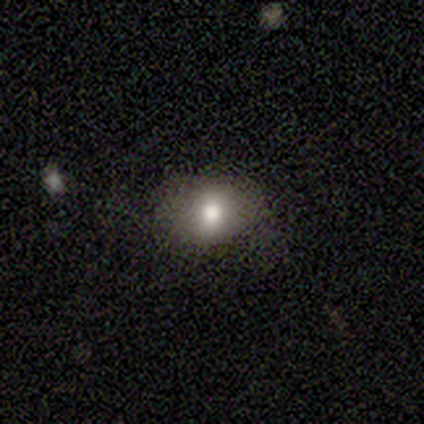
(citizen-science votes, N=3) Smooth or featured: smooth — 67% (star or artifact — 33%)
How rounded: round — 100%
Merging: none — 50% (tied with minor disturbance — 50%)